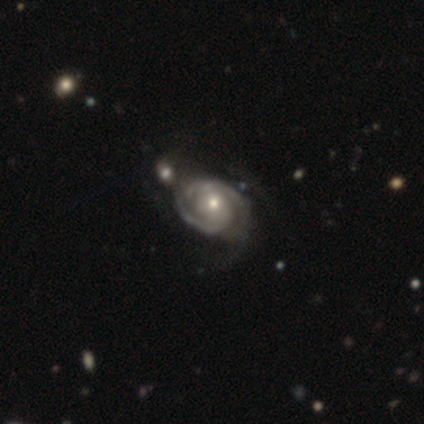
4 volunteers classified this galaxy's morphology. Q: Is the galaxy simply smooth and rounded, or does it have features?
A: featured or disk — 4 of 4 (100%).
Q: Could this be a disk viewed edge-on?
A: no — 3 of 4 (75%).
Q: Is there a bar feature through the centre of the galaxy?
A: no — 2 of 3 (67%).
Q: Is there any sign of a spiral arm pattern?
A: yes — 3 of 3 (100%).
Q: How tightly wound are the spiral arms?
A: tight — 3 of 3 (100%).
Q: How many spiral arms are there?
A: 1 — 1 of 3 (33%, tied with 2 and can't tell).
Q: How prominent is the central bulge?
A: small — 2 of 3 (67%).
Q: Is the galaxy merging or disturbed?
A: minor disturbance — 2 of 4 (50%).